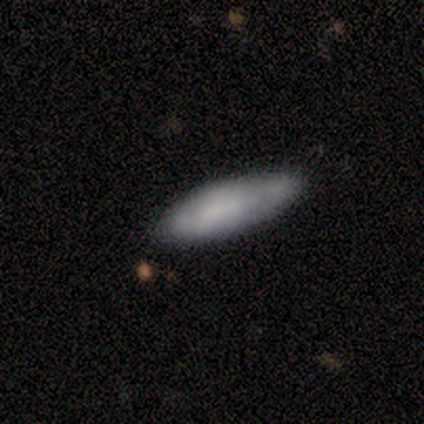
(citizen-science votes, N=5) Morphology: type=smooth (60%); roundness=in between (100%); merging=none (75%).